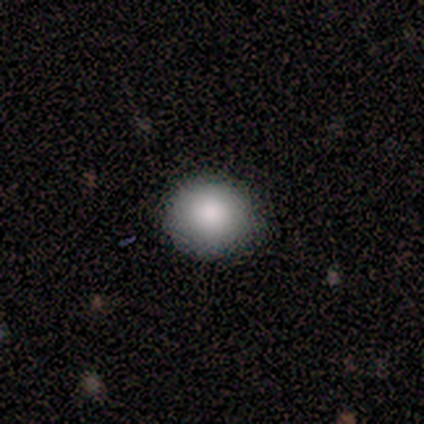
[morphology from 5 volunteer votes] Volunteers were most divided on "how rounded": round: 75%, in between: 25%, cigar-shaped: 0%. More confident: smooth or featured — smooth (80%); merging — none (80%).